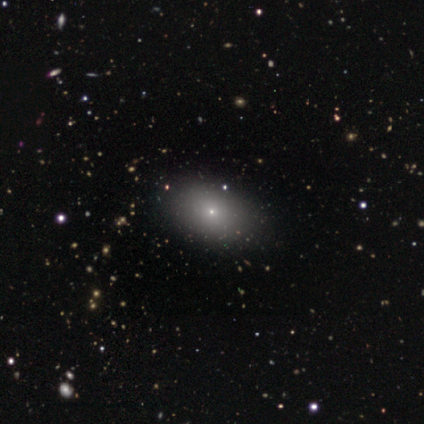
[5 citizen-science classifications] star or artifact 60%, smooth 40%, featured or disk 0%.